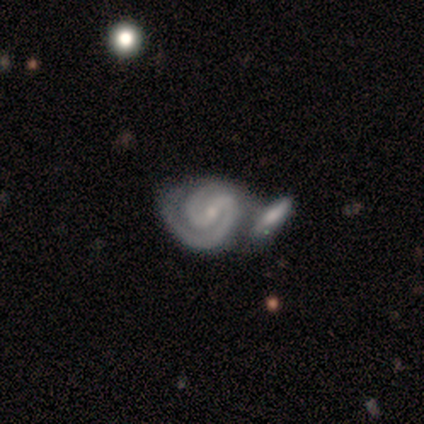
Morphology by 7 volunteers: This appears to be a featured or disk galaxy (100%) with no bar (43%), 2 (100%) medium (57%) spiral arms (100%) and a small central bulge (100%). Merging: merger (57%).